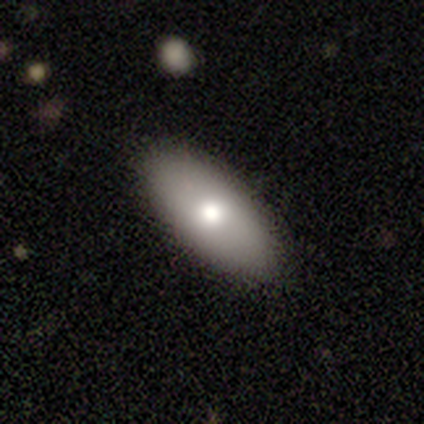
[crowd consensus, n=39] Overall: smooth (72%). How rounded: in between (89%). Merging: none (95%).